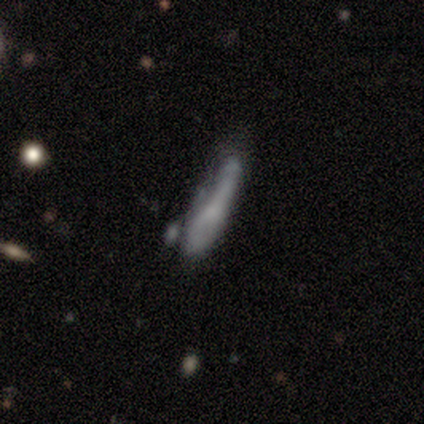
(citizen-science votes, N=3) This appears to be a smooth galaxy with no disk features (33%, tied with featured or disk and star or artifact) that is cigar-shaped (100%). Merging: none (50%, tied with major disturbance).